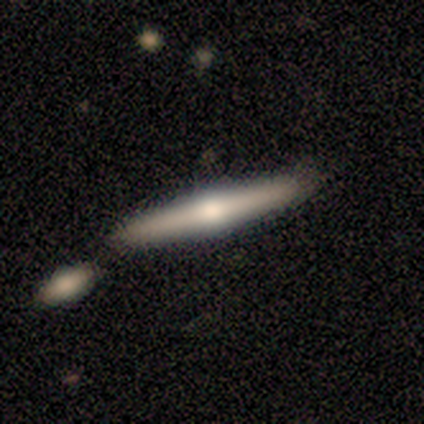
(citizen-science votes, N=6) This is possibly a smooth galaxy (50%, tied with featured or disk). How rounded: clearly cigar-shaped (100%). Merging: likely none (67%).